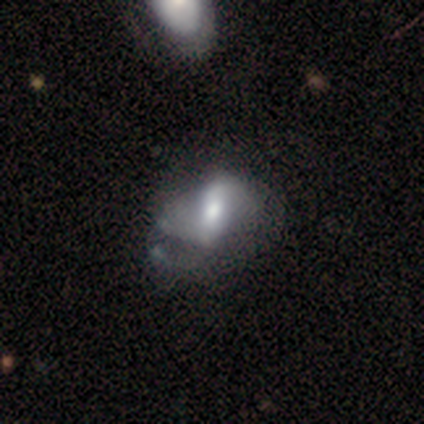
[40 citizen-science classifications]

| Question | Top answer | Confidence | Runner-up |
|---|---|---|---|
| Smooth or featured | featured or disk | 60% | smooth (32%) |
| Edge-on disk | no | 88% | yes (12%) |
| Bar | strong | 43% | no (33%) |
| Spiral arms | no | 57% | yes (43%) |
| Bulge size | moderate | 71% | large (14%) |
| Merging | major disturbance | 41% | minor disturbance (30%) |